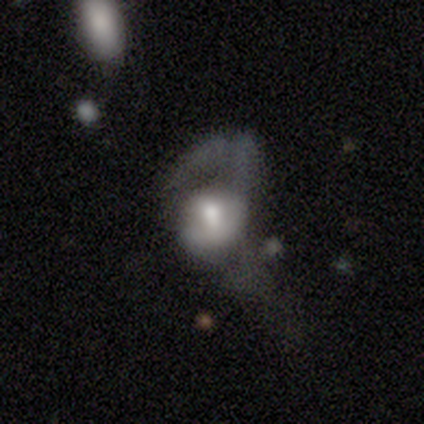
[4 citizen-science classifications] Smooth or featured? smooth (75%)
How rounded? in between (67%)
Merging? none (50%, tied with minor disturbance)